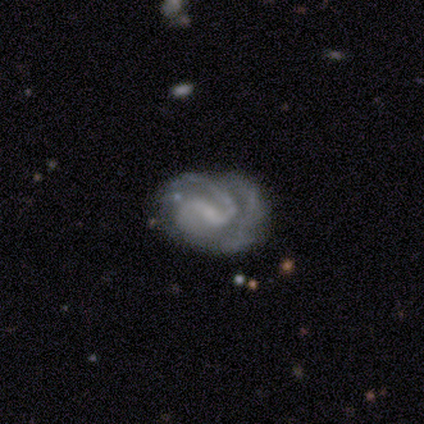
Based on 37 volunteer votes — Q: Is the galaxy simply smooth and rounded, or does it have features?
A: featured or disk — 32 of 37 (86%).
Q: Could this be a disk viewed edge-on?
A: no — 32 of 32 (100%).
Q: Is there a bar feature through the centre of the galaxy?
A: weak — 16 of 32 (50%).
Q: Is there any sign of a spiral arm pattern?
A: yes — 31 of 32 (97%).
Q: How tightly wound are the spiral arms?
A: tight — 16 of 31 (52%).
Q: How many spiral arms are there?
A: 2 — 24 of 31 (77%).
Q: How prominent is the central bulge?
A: small — 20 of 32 (62%).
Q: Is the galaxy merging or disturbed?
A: none — 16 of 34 (47%).